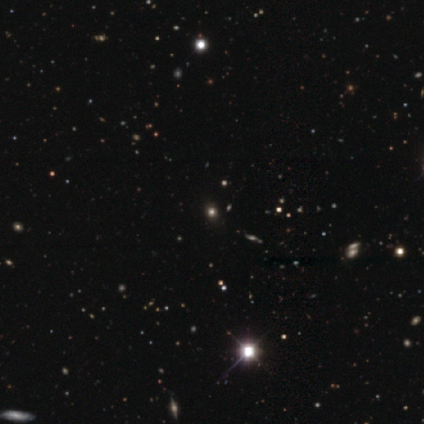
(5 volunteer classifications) Smooth or featured?
  - star or artifact: 60% *
  - smooth: 40%
  - featured or disk: 0%